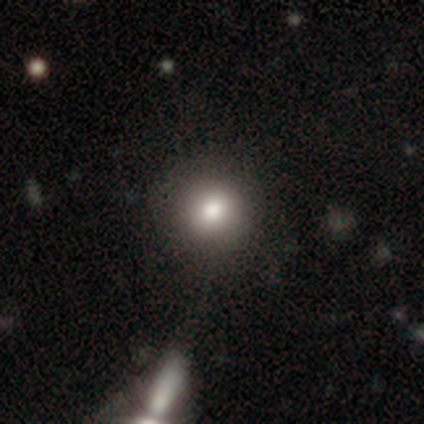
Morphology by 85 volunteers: Volunteers were most divided on "smooth or featured": smooth: 71%, star or artifact: 20%, featured or disk: 9%. More confident: how rounded — round (98%); merging — none (76%).